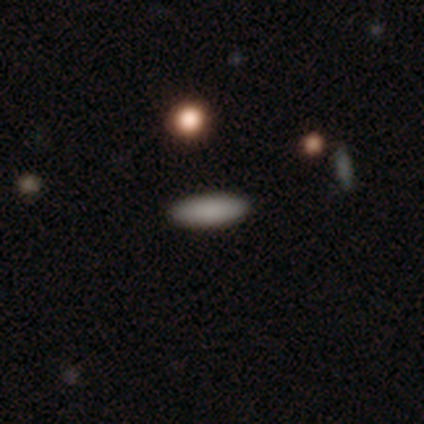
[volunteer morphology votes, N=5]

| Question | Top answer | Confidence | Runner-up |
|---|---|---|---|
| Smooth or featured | smooth | 100% | — |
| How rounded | in between | 60% | cigar-shaped (40%) |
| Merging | none | 100% | — |